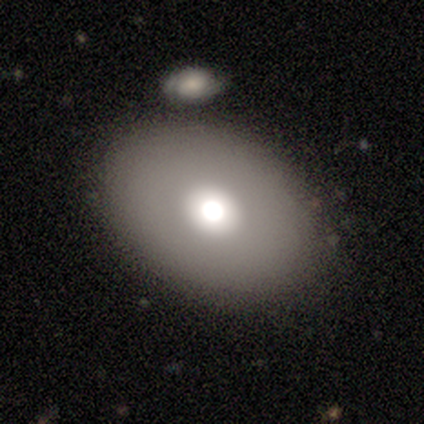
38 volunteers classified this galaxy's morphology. This is clearly a smooth galaxy (82%). How rounded: clearly in between (90%). Merging: marginally merger (31%).